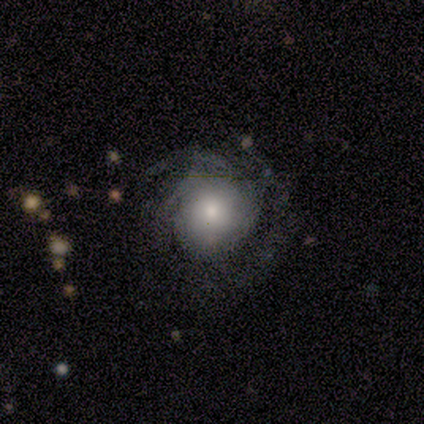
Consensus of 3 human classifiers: Smooth or featured?
  - featured or disk: 100% *
  - smooth: 0%
  - star or artifact: 0%
Edge-on disk?
  - no: 100% *
  - yes: 0%
Bar?
  - no: 67% *
  - strong: 33%
  - weak: 0%
Spiral arms?
  - yes: 100% *
  - no: 0%
Spiral winding?
  - tight: 100% *
  - medium: 0%
  - loose: 0%
Spiral arm count?
  - 2: 33% * (tied)
  - 3: 33% * (tied)
  - can't tell: 33% * (tied)
  - 1: 0%
  - 4: 0%
  - more than 4: 0%
Bulge size?
  - dominant: 33% * (tied)
  - large: 33% * (tied)
  - small: 33% * (tied)
  - moderate: 0%
  - none: 0%
Merging?
  - none: 100% *
  - minor disturbance: 0%
  - major disturbance: 0%
  - merger: 0%